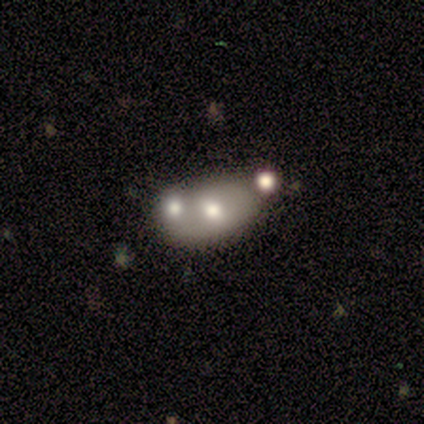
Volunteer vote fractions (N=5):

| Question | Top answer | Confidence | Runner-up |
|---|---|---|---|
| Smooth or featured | smooth | 60% | featured or disk (20%) |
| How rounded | in between | 67% | round (33%) |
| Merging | merger | 75% | none (25%) |